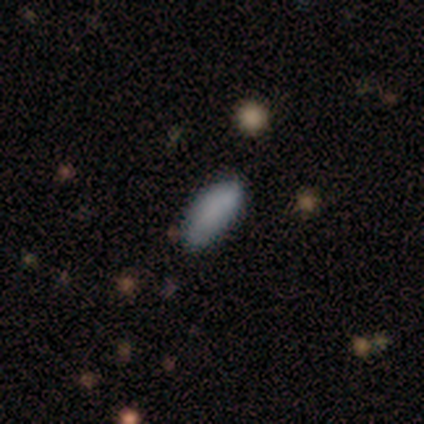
This appears to be a smooth galaxy with no disk features (80%) that is in between round and cigar-shaped (100%). Merging: none (80%).